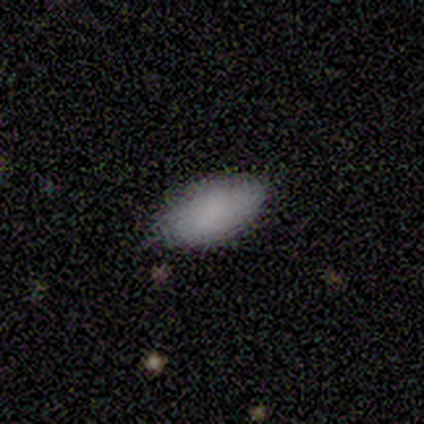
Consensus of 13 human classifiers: Morphology: type=smooth (77%); roundness=in between (90%); merging=none (75%).